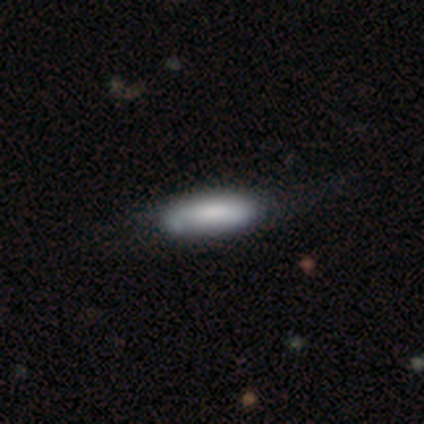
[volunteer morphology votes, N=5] A smooth galaxy with no disk features (80%) that is in between round and cigar-shaped (50%, tied with cigar-shaped).

Vote fractions:
- Smooth or featured? smooth: 80% / featured or disk: 20% / star or artifact: 0%
- How rounded? in between: 50% (tied) / cigar-shaped: 50% (tied) / round: 0%
- Merging? none: 80% / minor disturbance: 20% / major disturbance: 0% / merger: 0%